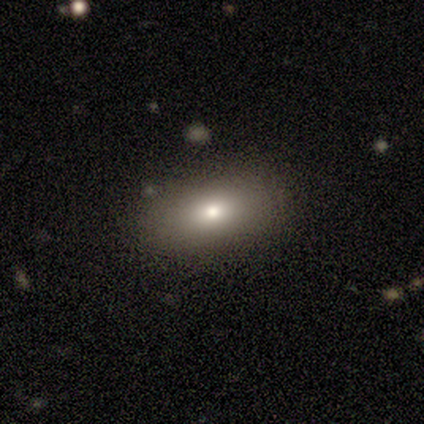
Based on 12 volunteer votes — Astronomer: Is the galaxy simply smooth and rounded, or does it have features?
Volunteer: smooth — 92%.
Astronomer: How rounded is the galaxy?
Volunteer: in between — 82%.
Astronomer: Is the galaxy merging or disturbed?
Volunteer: none — 82%.